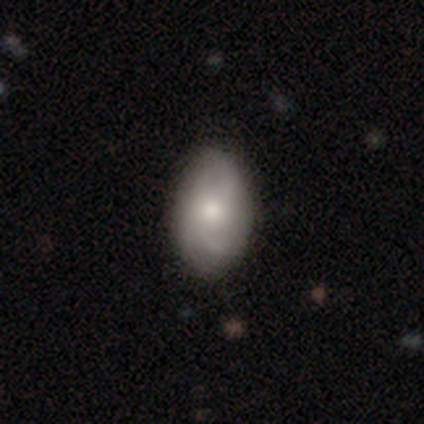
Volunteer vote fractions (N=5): Q: Smooth or featured?
A: smooth (60%); runner-up: featured or disk (40%)
Q: How rounded?
A: in between (100%)
Q: Merging?
A: none (80%); runner-up: minor disturbance (20%)